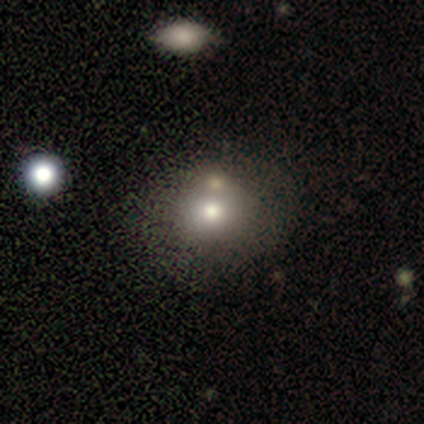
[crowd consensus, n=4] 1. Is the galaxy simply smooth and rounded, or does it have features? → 75% smooth, 25% star or artifact, 0% featured or disk.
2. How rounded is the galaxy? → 100% round, 0% in between, 0% cigar-shaped.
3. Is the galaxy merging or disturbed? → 100% none, 0% minor disturbance, 0% major disturbance, 0% merger.